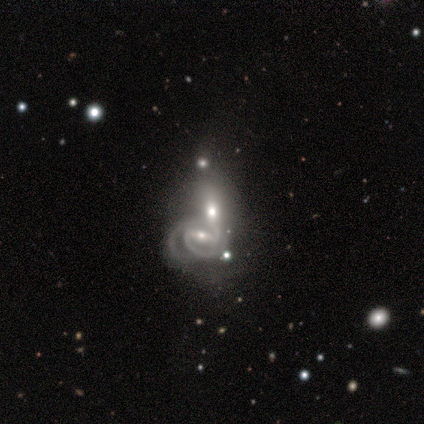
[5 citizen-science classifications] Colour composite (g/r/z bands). It shows a featured or disk galaxy (80%) with a strong bar (75%), 2 (100%) medium (67%) spiral arms (75%) and a small central bulge (50%). Merging: merger (75%).